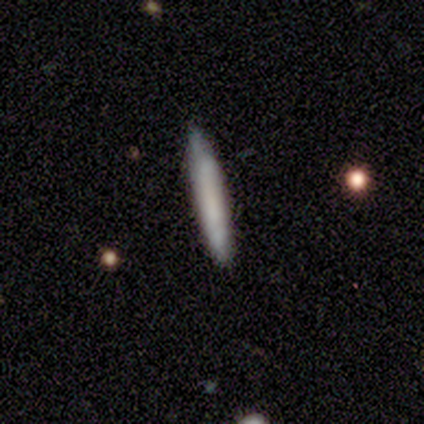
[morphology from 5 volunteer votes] A smooth galaxy with no disk features (60%) that is cigar-shaped (100%). Merging: none (80%).